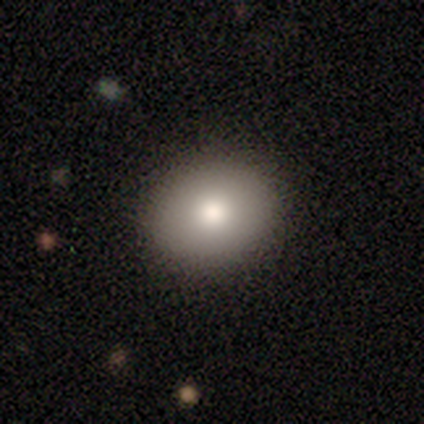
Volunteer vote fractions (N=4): A smooth galaxy with no disk features (100%) that is round (50%, tied with in between).

Vote fractions:
- Smooth or featured? smooth: 100% / featured or disk: 0% / star or artifact: 0%
- How rounded? round: 50% (tied) / in between: 50% (tied) / cigar-shaped: 0%
- Merging? none: 100% / minor disturbance: 0% / major disturbance: 0% / merger: 0%